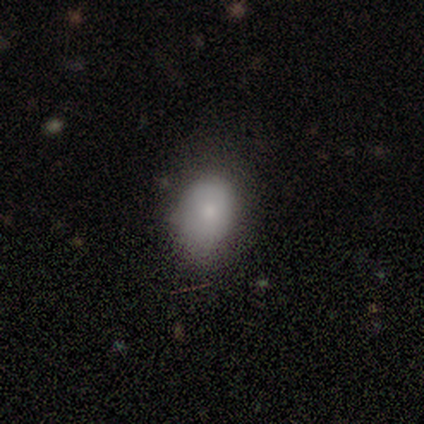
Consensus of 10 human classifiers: Smooth or featured? smooth (90%)
How rounded? in between (67%)
Merging? none (80%)